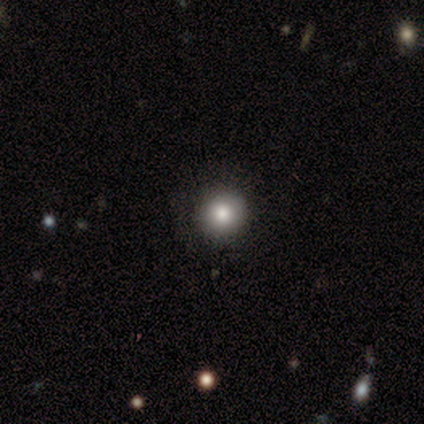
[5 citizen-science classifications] Consensus on every question: smooth or featured — smooth (100%); how rounded — round (100%); merging — none (100%).